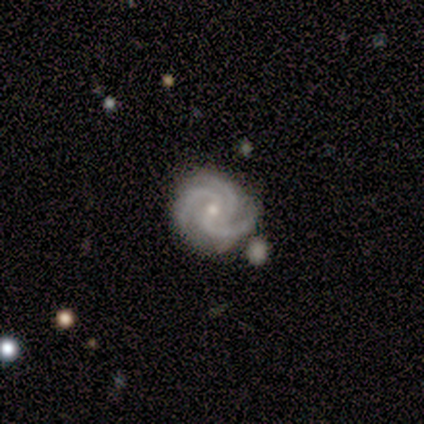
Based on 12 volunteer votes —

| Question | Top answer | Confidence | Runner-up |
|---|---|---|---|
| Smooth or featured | featured or disk | 100% | — |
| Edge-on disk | no | 100% | — |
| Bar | weak | 50% | tied: no (50%) |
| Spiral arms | yes | 100% | — |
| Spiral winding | tight | 75% | medium (25%) |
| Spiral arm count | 3 | 92% | 2 (8%) |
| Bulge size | small | 58% | moderate (42%) |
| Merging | none | 67% | minor disturbance (25%) |